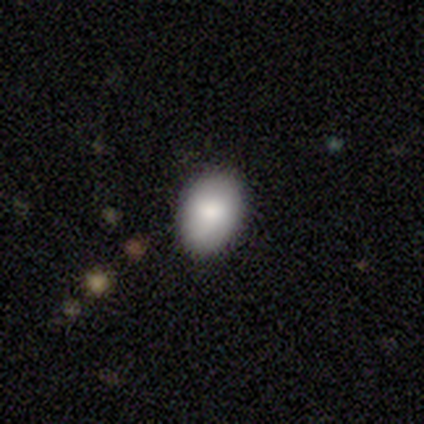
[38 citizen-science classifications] Morphology: type=smooth (92%); roundness=in between (91%); merging=none (84%).